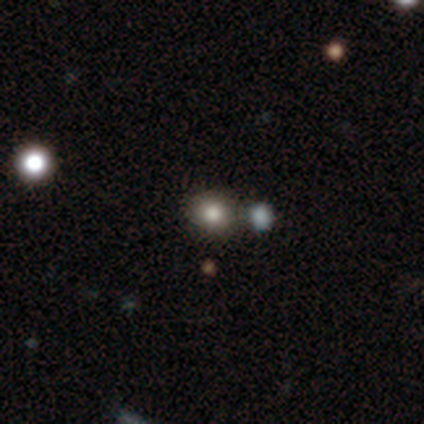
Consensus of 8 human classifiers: smooth 88%, star or artifact 12%, featured or disk 0%. Down the decision tree: how rounded — round (86%); merging — none (86%).